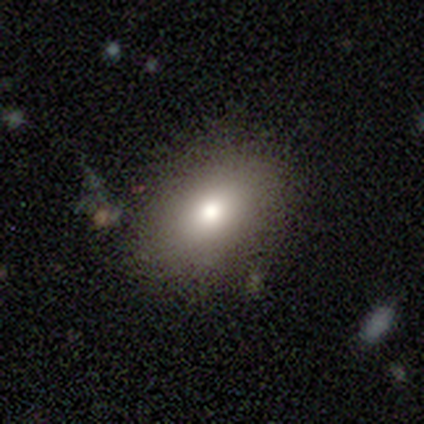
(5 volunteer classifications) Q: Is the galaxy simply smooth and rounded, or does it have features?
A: smooth — 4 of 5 (80%).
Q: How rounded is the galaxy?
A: in between — 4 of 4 (100%).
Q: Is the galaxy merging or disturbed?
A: none — 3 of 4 (75%).